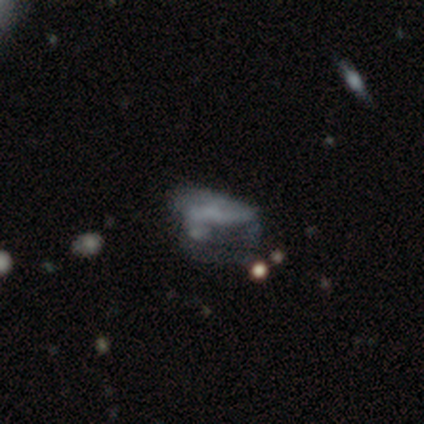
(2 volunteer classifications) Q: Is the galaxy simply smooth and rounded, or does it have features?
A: featured or disk — 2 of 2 (100%).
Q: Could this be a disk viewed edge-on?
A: no — 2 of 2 (100%).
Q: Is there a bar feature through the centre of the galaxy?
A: no — 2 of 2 (100%).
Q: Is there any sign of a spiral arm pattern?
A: yes — 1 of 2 (50%, tied with no).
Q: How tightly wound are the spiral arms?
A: loose — 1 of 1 (100%).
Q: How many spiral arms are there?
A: can't tell — 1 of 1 (100%).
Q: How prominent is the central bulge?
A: moderate — 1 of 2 (50%, tied with small).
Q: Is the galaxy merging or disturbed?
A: minor disturbance — 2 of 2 (100%).